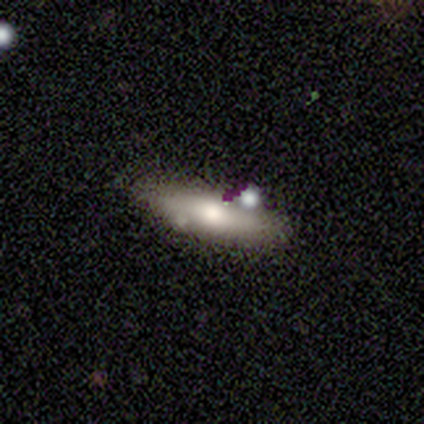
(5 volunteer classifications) smooth_or_featured: smooth (p=0.80) [alt: featured or disk p=0.20]
how_rounded: in between (p=1.00)
merging: none (p=0.60) [alt: minor disturbance p=0.40]